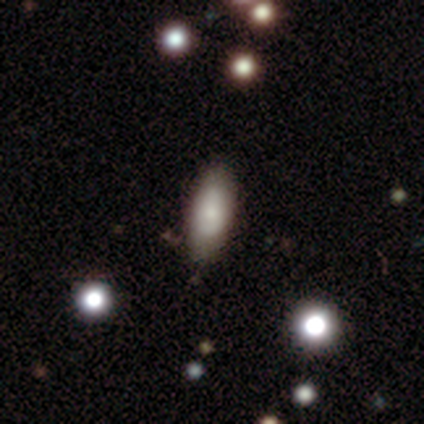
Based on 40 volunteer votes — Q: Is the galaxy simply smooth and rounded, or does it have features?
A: smooth — 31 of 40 (78%).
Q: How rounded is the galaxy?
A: in between — 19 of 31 (61%).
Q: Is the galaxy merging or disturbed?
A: none — 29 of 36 (81%).